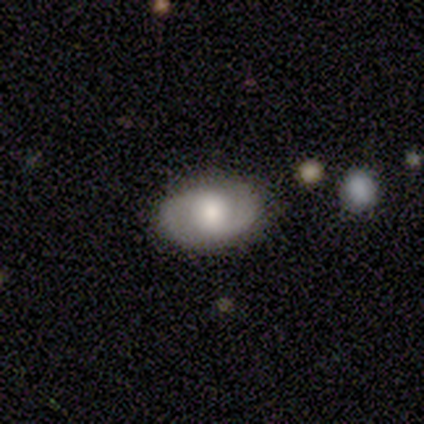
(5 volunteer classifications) Smooth or featured? featured or disk (60%)
Edge-on disk? no (100%)
Bar? weak (67%)
Spiral arms? yes (100%)
Spiral winding? medium (67%)
Spiral arm count? 2 (100%)
Bulge size? moderate (100%)
Merging? none (80%)